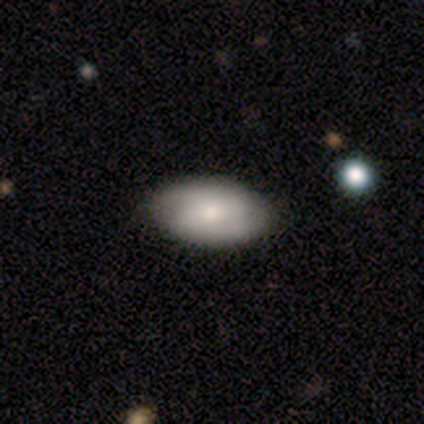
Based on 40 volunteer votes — A smooth galaxy with no disk features (68%) that is in between round and cigar-shaped (100%). Merging: none (69%).